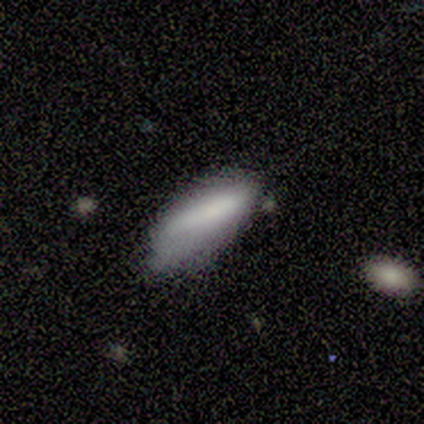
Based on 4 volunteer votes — Smooth or featured? 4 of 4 (100%) said smooth. How rounded? 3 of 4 (75%) said in between. Merging? 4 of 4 (100%) said minor disturbance.